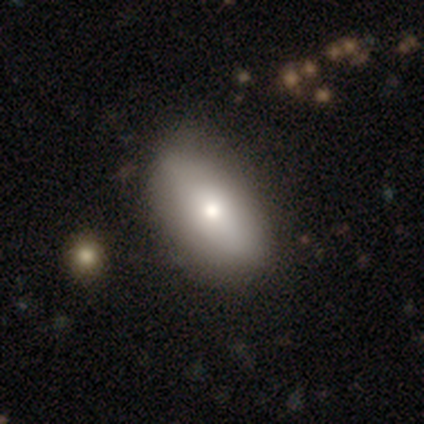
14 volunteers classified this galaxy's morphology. Smooth or featured?
  - smooth: 86% *
  - featured or disk: 7%
  - star or artifact: 7%
How rounded?
  - in between: 100% *
  - round: 0%
  - cigar-shaped: 0%
Merging?
  - none: 69% *
  - minor disturbance: 23%
  - major disturbance: 8%
  - merger: 0%